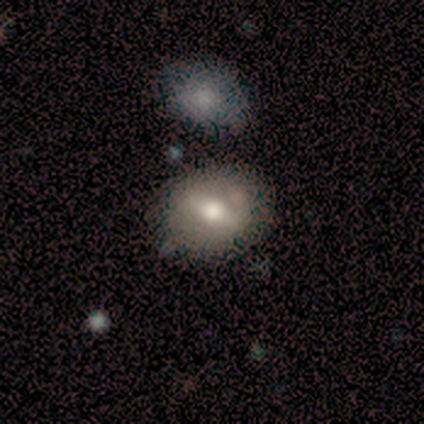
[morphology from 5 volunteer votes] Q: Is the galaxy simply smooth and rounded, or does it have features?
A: smooth — 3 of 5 (60%).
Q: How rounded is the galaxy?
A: in between — 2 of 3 (67%).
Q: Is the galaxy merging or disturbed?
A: minor disturbance — 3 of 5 (60%).